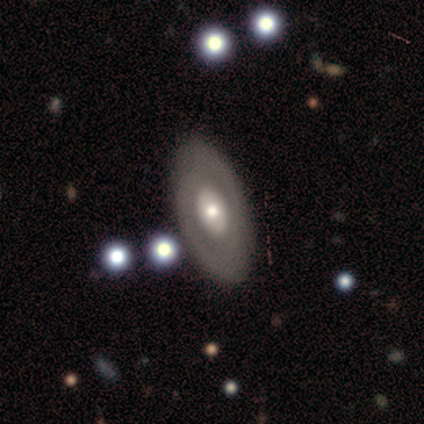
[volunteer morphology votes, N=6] Smooth or featured: featured or disk — 100%
Edge-on disk: no — 83% (yes — 17%)
Bar: no — 80% (weak — 20%)
Spiral arms: no — 80% (yes — 20%)
Bulge size: large — 40% (tied with moderate — 40%)
Merging: none — 83% (minor disturbance — 17%)